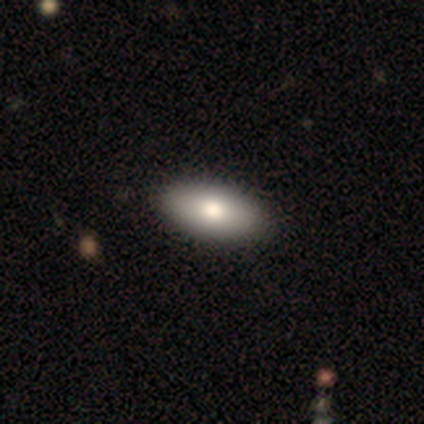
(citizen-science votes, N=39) Smooth or featured: smooth — 77% (featured or disk — 18%)
How rounded: in between — 90% (cigar-shaped — 10%)
Merging: none — 57% (minor disturbance — 5%)